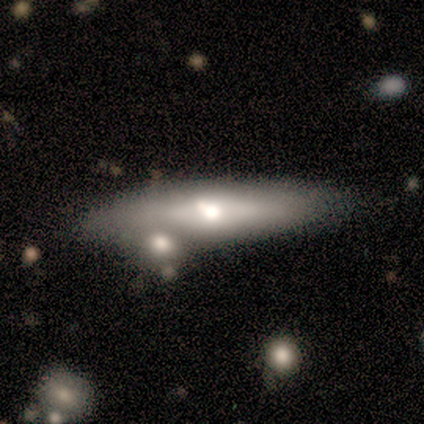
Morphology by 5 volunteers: Smooth or featured? 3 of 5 (60%) said smooth. How rounded? 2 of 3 (67%) said cigar-shaped. Merging? 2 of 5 (40%, tied with minor disturbance) said none.